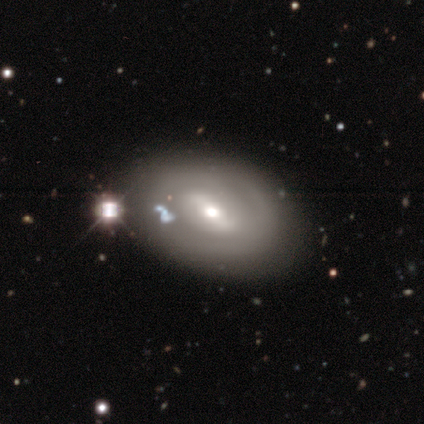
featured or disk 56%, smooth 33%, star or artifact 11%. Down the decision tree: edge-on disk — no (100%); bar — weak (40%, tied with no); spiral arms — no (100%); bulge size — moderate (60%); merging — none (75%).